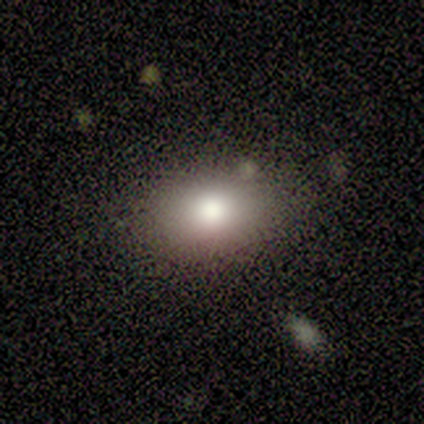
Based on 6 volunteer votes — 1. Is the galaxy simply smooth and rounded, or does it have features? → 83% smooth, 17% featured or disk, 0% star or artifact.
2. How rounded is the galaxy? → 80% in between, 20% round, 0% cigar-shaped.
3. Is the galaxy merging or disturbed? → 67% none, 33% minor disturbance, 0% major disturbance, 0% merger.